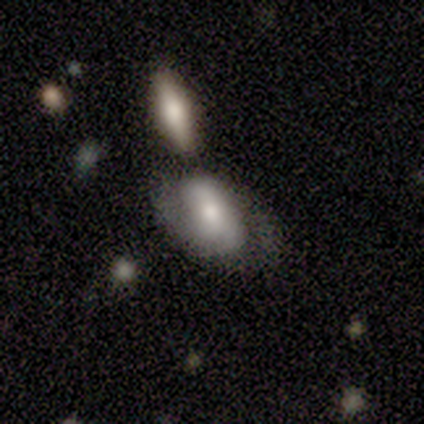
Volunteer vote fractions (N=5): smooth_or_featured: featured or disk (p=0.60) [alt: smooth p=0.40]
disk_edge_on: no (p=1.00)
bar: no (p=0.67) [alt: weak p=0.33]
has_spiral_arms: yes (p=0.67) [alt: no p=0.33]
spiral_winding: loose (p=1.00)
spiral_arm_count: 2 (p=1.00)
bulge_size: small (p=0.67) [alt: none p=0.33]
merging: none (p=0.40) [alt: minor disturbance p=0.20]